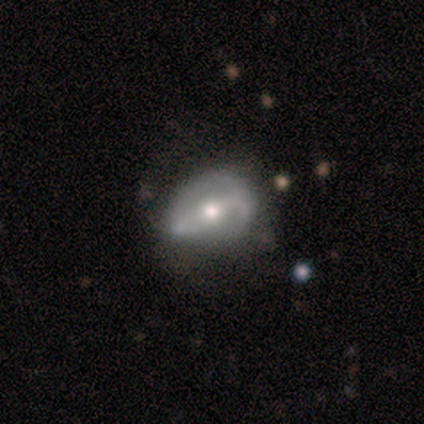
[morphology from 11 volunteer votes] Smooth or featured? featured or disk (64%)
Edge-on disk? no (100%)
Bar? strong (71%)
Spiral arms? yes (71%)
Spiral winding? medium (40%, tied with loose)
Spiral arm count? 2 (100%)
Bulge size? moderate (86%)
Merging? none (55%)